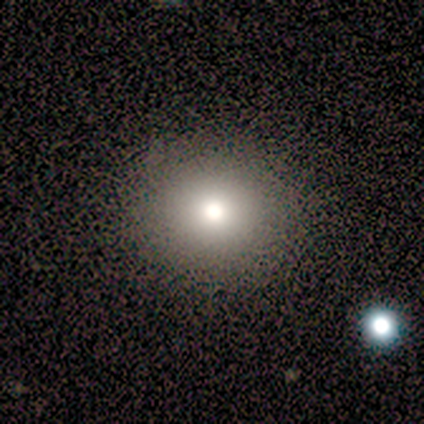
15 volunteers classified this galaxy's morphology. A smooth galaxy with no disk features (73%) that is round (100%). Merging: none (100%).